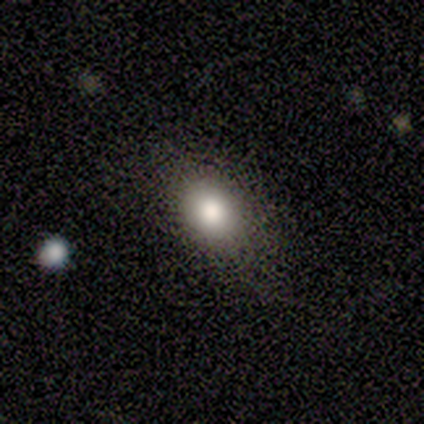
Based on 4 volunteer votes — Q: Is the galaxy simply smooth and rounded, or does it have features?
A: smooth — 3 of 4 (75%).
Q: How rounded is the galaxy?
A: in between — 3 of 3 (100%).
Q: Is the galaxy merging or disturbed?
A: none — 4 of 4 (100%).